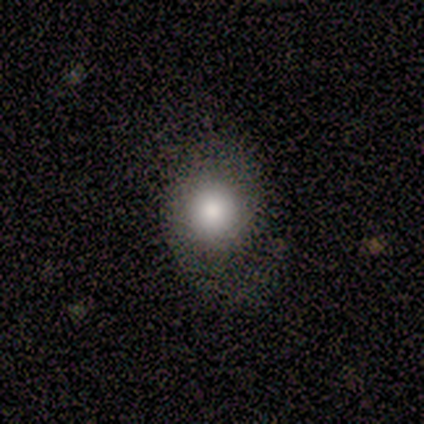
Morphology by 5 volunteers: Q: Smooth or featured?
A: smooth (80%); runner-up: star or artifact (20%)
Q: How rounded?
A: in between (75%); runner-up: round (25%)
Q: Merging?
A: none (75%); runner-up: minor disturbance (25%)